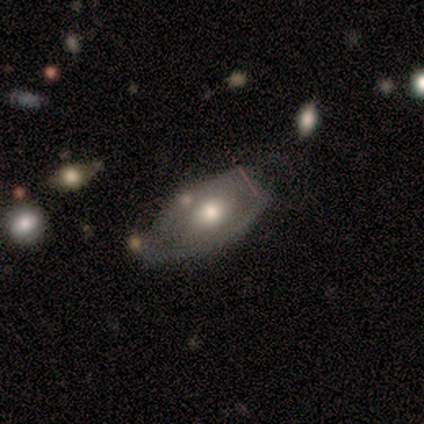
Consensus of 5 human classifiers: Smooth or featured? 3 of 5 (60%) said featured or disk. Edge-on disk? 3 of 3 (100%) said no. Bar? 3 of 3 (100%) said no. Spiral arms? 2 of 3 (67%) said yes. Spiral winding? 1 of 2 (50%, tied with medium) said tight. Spiral arm count? 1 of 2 (50%, tied with can't tell) said 2. Bulge size? 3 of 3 (100%) said moderate. Merging? 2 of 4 (50%, tied with minor disturbance) said none.